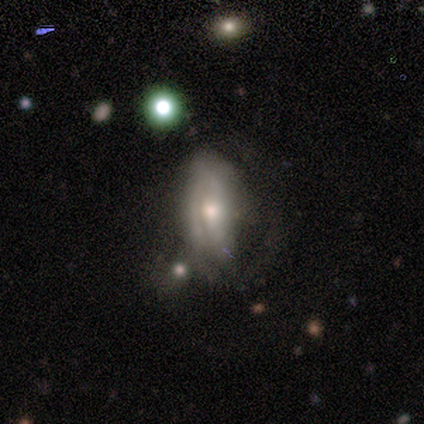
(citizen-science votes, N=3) Smooth or featured?
  - featured or disk: 100% *
  - smooth: 0%
  - star or artifact: 0%
Edge-on disk?
  - no: 100% *
  - yes: 0%
Bar?
  - no: 67% *
  - weak: 33%
  - strong: 0%
Spiral arms?
  - no: 67% *
  - yes: 33%
Bulge size?
  - small: 67% *
  - moderate: 33%
  - dominant: 0%
  - large: 0%
  - none: 0%
Merging?
  - none: 67% *
  - major disturbance: 33%
  - minor disturbance: 0%
  - merger: 0%